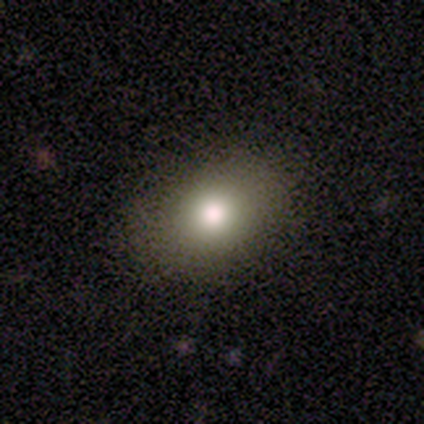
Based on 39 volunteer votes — Morphology: type=smooth (77%); roundness=in between (60%); merging=none (85%).